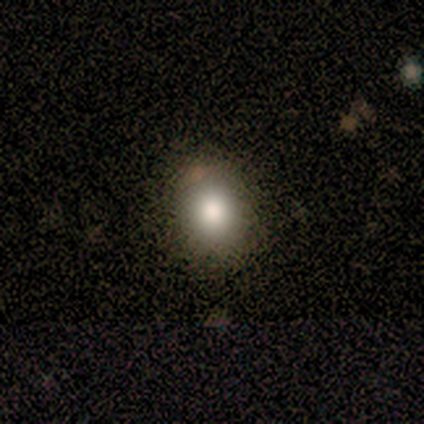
Smooth or featured?
  - smooth: 71% *
  - featured or disk: 14%
  - star or artifact: 14%
How rounded?
  - round: 80% *
  - in between: 20%
  - cigar-shaped: 0%
Merging?
  - none: 100% *
  - minor disturbance: 0%
  - major disturbance: 0%
  - merger: 0%